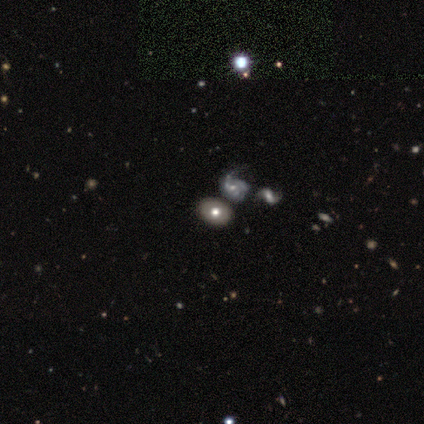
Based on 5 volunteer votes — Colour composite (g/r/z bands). It shows a smooth galaxy with no disk features (60%) that is in between round and cigar-shaped (100%). Merging: none (75%).